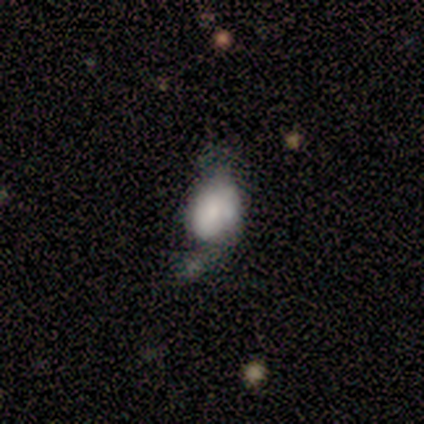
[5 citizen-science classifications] featured or disk 80%, smooth 20%, star or artifact 0%. Down the decision tree: edge-on disk — no (100%); bar — no (75%); spiral arms — no (75%); bulge size — dominant (25%, tied with large, moderate and none); merging — major disturbance (40%).